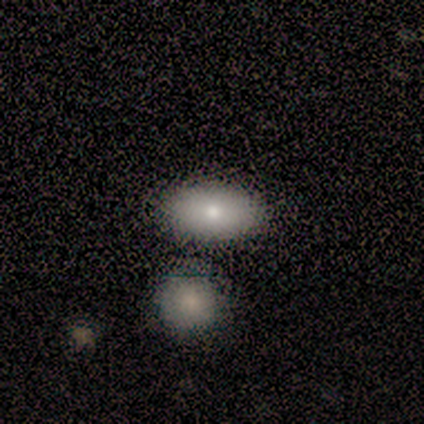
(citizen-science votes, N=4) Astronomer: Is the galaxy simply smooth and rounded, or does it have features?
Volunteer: smooth — 75%.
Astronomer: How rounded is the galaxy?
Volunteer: in between — 100%.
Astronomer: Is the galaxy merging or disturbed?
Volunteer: none — 75%.